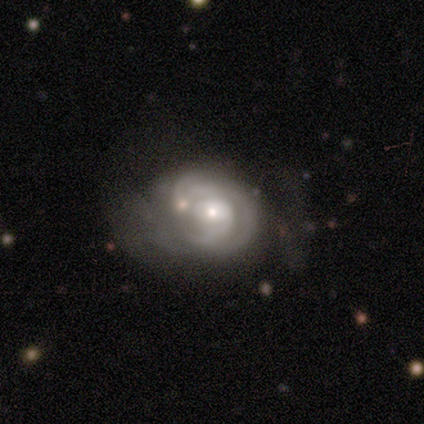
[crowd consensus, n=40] Volunteers were most divided on "spiral arm count" (2-way tie): 3: 34%, can't tell: 34%, 2: 24%, 1: 7%, 4: 0%, more than 4: 0%. Remaining: edge-on disk — no (97%); spiral arms — yes (97%); bar — no (83%); smooth or featured — featured or disk (78%); bulge size — small (67%); spiral winding — tight (48%); merging — none (36%).